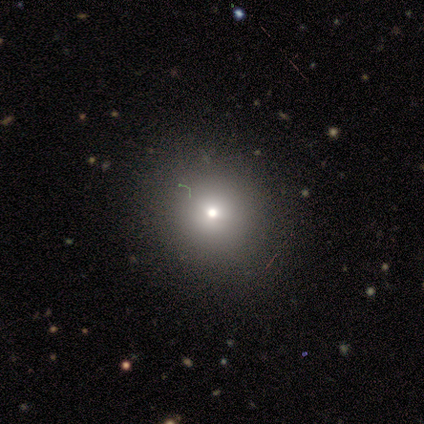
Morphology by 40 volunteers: smooth 50%, star or artifact 35%, featured or disk 15%. Down the decision tree: how rounded — round (80%); merging — none (85%).